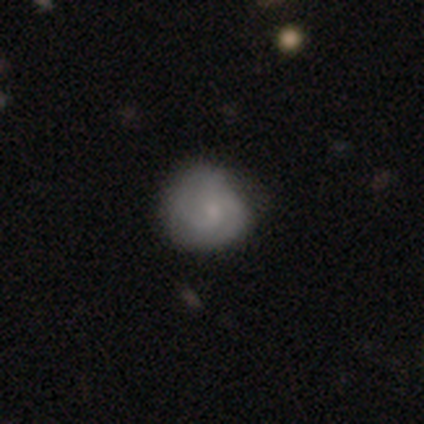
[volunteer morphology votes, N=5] type=smooth (60%); roundness=round (100%); merging=none (50%, tied with minor disturbance).